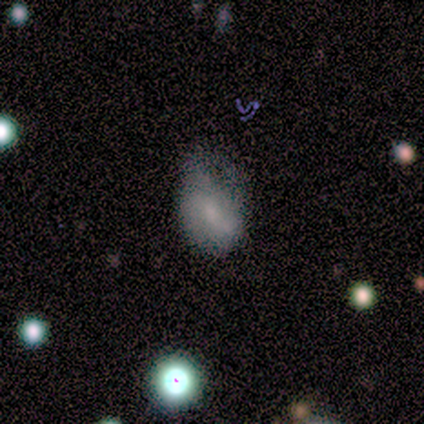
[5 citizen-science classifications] Q: Smooth or featured?
A: smooth (60%); runner-up: featured or disk (40%)
Q: How rounded?
A: in between (67%); runner-up: round (33%)
Q: Merging?
A: none (40%); tied with: minor disturbance (40%)